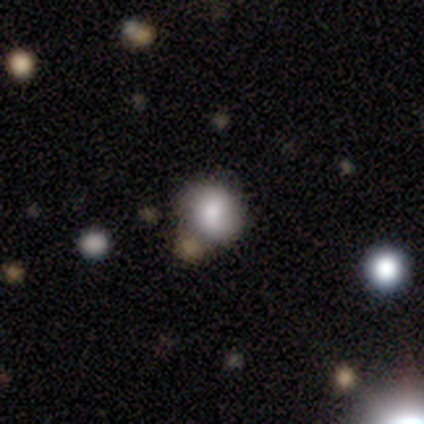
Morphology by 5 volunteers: Smooth or featured?
  - smooth: 100% *
  - featured or disk: 0%
  - star or artifact: 0%
How rounded?
  - round: 80% *
  - in between: 20%
  - cigar-shaped: 0%
Merging?
  - none: 80% *
  - minor disturbance: 20%
  - major disturbance: 0%
  - merger: 0%